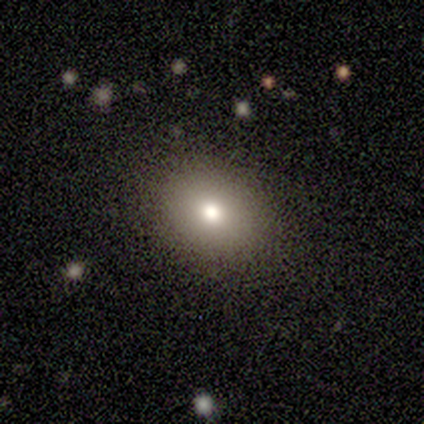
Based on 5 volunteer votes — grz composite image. It shows a smooth galaxy with no disk features (100%) that is round (80%). Merging: none (100%).